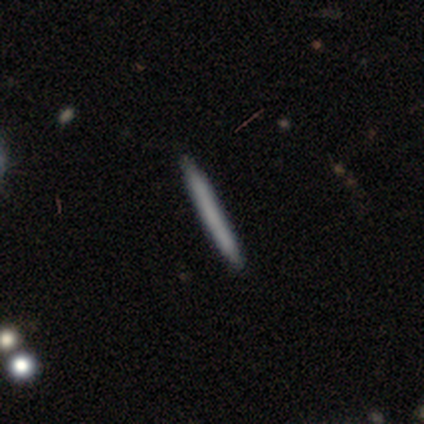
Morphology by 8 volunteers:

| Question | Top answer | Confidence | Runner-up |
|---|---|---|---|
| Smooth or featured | smooth | 62% | featured or disk (38%) |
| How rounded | cigar-shaped | 100% | — |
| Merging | none | 100% | — |